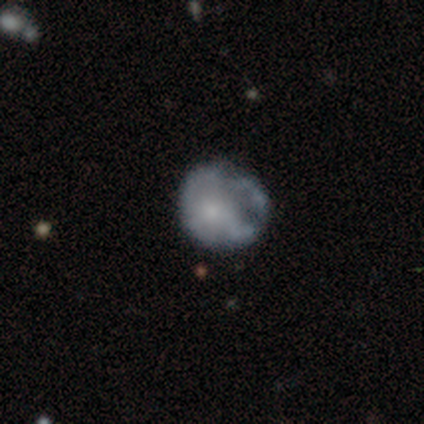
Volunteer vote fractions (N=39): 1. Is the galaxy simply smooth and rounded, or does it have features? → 62% featured or disk, 33% smooth, 5% star or artifact.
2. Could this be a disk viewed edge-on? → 100% no, 0% yes.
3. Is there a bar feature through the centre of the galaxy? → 88% no, 12% weak, 0% strong.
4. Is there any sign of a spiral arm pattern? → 88% no, 12% yes.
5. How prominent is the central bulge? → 46% small, 29% moderate, 21% none, 4% large, 0% dominant.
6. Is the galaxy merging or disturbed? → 51% none, 32% minor disturbance, 16% major disturbance, 0% merger.